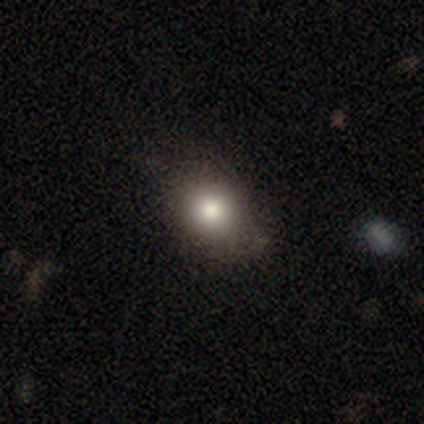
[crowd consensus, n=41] Smooth or featured: smooth — 83% (featured or disk — 10%)
How rounded: round — 71% (in between — 26%)
Merging: none — 82% (minor disturbance — 16%)